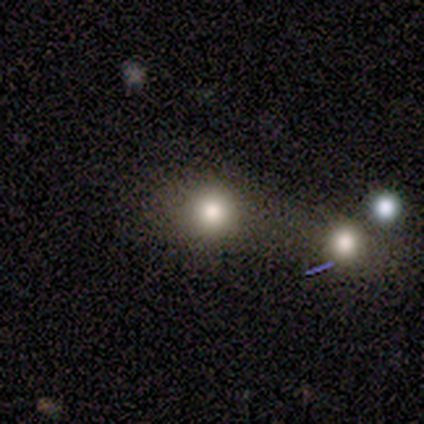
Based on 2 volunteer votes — Overall: smooth (50%, tied with star or artifact). How rounded: round (100%). Merging: none (100%).